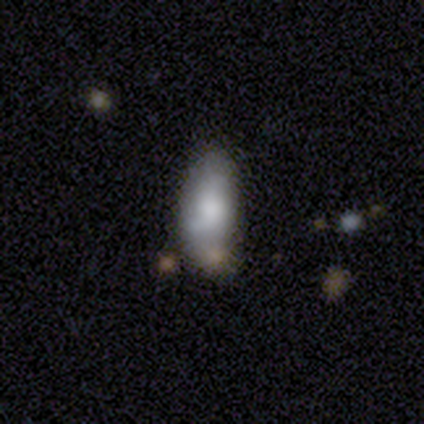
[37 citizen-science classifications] Q: Smooth or featured?
A: smooth (78%); runner-up: featured or disk (14%)
Q: How rounded?
A: in between (86%); runner-up: cigar-shaped (14%)
Q: Merging?
A: none (50%); runner-up: minor disturbance (32%)